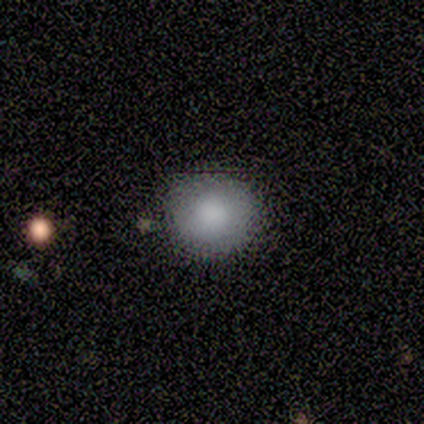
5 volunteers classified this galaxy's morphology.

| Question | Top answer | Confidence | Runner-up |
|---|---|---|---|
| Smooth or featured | smooth | 80% | featured or disk (20%) |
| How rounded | round | 100% | — |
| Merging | none | 100% | — |